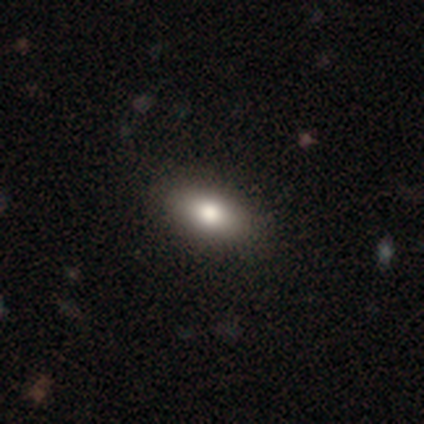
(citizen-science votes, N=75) Smooth or featured? 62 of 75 (83%) said smooth. How rounded? 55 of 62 (89%) said in between. Merging? 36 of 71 (51%) said none.